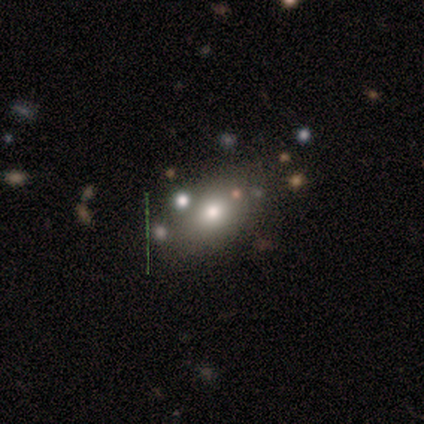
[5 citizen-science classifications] Morphology: type=smooth (80%); roundness=in between (100%); merging=none (75%).